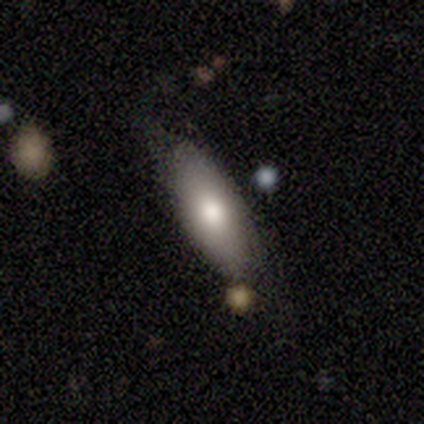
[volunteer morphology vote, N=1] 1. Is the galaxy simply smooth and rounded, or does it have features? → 100% smooth, 0% featured or disk, 0% star or artifact.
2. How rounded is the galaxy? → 100% in between, 0% round, 0% cigar-shaped.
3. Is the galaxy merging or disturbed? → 100% none, 0% minor disturbance, 0% major disturbance, 0% merger.